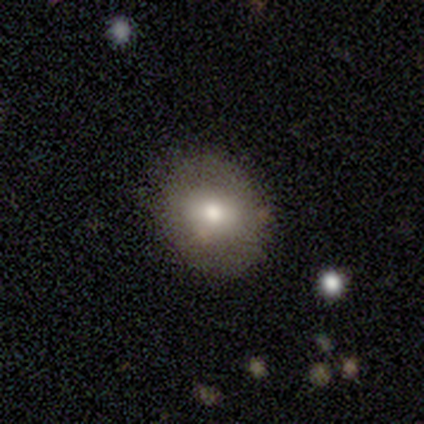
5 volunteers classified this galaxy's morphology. Smooth or featured? smooth (80%)
How rounded? round (75%)
Merging? none (100%)